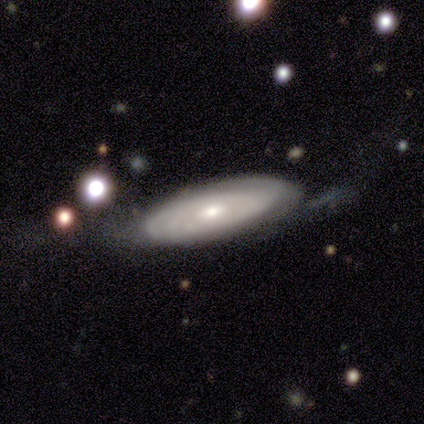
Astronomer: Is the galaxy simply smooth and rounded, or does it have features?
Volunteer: smooth — 60% (runner-up: featured or disk, 40%).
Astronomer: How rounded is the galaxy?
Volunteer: in between — 67%.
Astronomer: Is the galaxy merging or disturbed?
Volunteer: none — 80%.